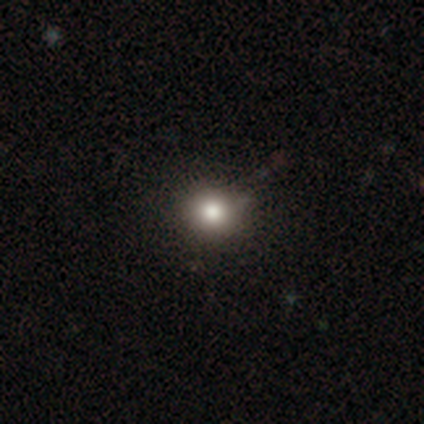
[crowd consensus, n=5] Consensus on every question: smooth or featured — smooth (100%); how rounded — round (100%); merging — none (100%).